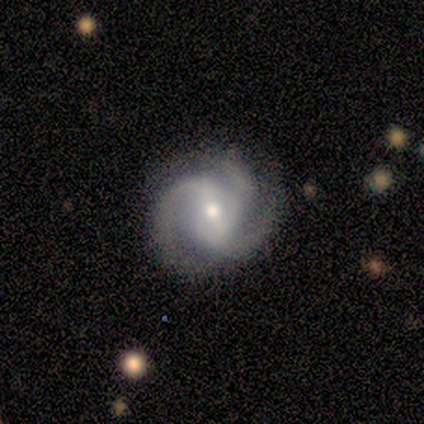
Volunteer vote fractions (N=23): smooth_or_featured: featured or disk (p=0.91) [alt: smooth p=0.04]
disk_edge_on: no (p=1.00)
bar: weak (p=0.48) [alt: no p=0.29]
has_spiral_arms: yes (p=0.95) [alt: no p=0.05]
spiral_winding: medium (p=0.45) [alt: tight p=0.40]
spiral_arm_count: 3 (p=1.00)
bulge_size: moderate (p=0.71) [alt: small p=0.24]
merging: none (p=0.82) [alt: minor disturbance p=0.14]